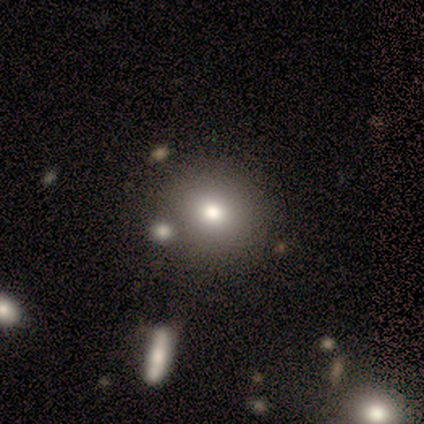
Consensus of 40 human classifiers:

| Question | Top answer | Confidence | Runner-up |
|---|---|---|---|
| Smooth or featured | smooth | 75% | featured or disk (15%) |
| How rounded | round | 77% | in between (23%) |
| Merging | none | 86% | minor disturbance (6%) |